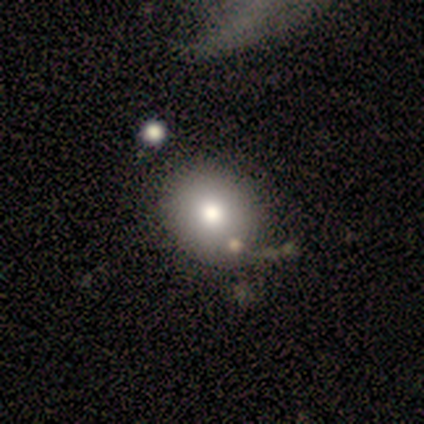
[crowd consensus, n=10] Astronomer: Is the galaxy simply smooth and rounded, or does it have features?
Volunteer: smooth — 60%.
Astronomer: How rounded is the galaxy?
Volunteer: round — 50%, tied with in between at 50%.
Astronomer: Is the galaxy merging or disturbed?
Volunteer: none — 67%.